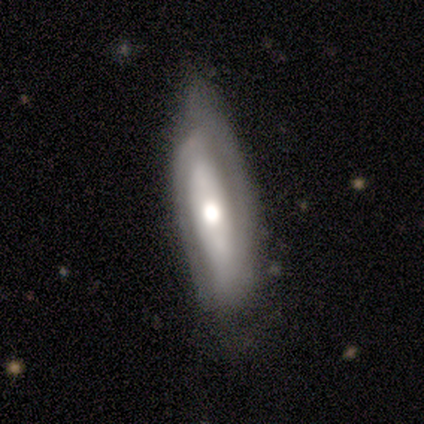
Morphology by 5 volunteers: Q: Smooth or featured?
A: featured or disk (80%); runner-up: smooth (20%)
Q: Edge-on disk?
A: no (100%)
Q: Bar?
A: no (50%); runner-up: strong (25%)
Q: Spiral arms?
A: yes (50%); tied with: no (50%)
Q: Spiral winding?
A: tight (50%); tied with: loose (50%)
Q: Spiral arm count?
A: can't tell (100%)
Q: Bulge size?
A: moderate (75%); runner-up: large (25%)
Q: Merging?
A: minor disturbance (100%)